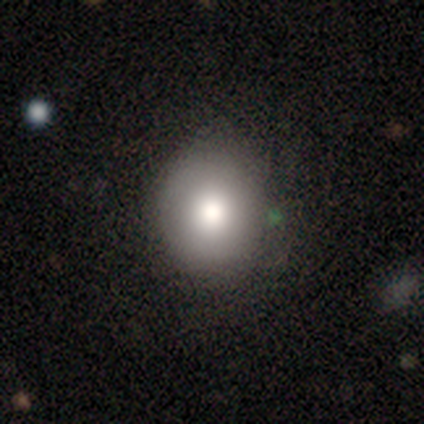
smooth_or_featured: smooth (p=1.00)
how_rounded: round (p=0.67) [alt: in between p=0.33]
merging: none (p=0.83) [alt: minor disturbance p=0.17]